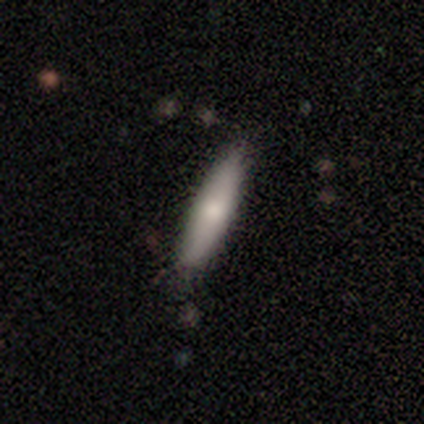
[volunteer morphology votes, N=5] Smooth or featured: smooth — 80% (featured or disk — 20%)
How rounded: cigar-shaped — 75% (in between — 25%)
Merging: none — 80% (minor disturbance — 20%)